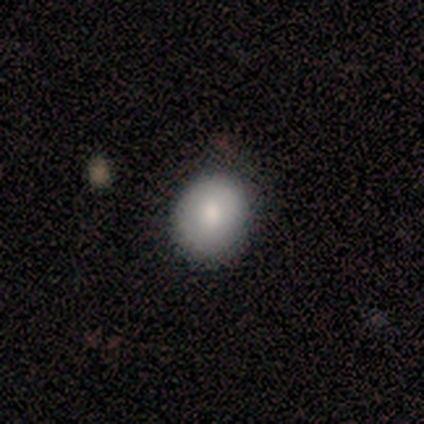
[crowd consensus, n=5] Smooth or featured? smooth (100%)
How rounded? round (80%)
Merging? none (80%)